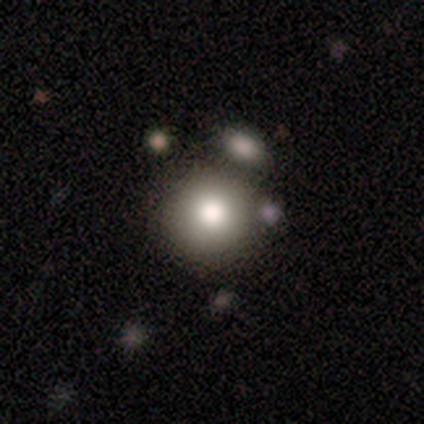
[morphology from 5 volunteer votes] smooth_or_featured: smooth (p=1.00)
how_rounded: round (p=1.00)
merging: none (p=1.00)